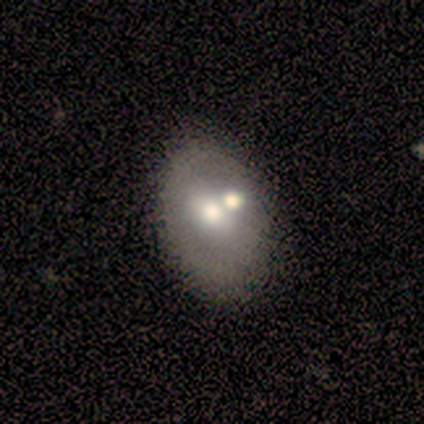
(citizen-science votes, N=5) This is clearly a smooth galaxy (100%). How rounded: likely in between (60%). Merging: likely merger (60%).